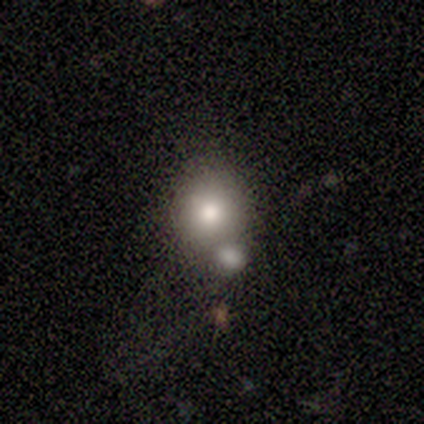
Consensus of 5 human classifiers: Morphology: type=smooth (80%); roundness=in between (75%); merging=merger (75%).